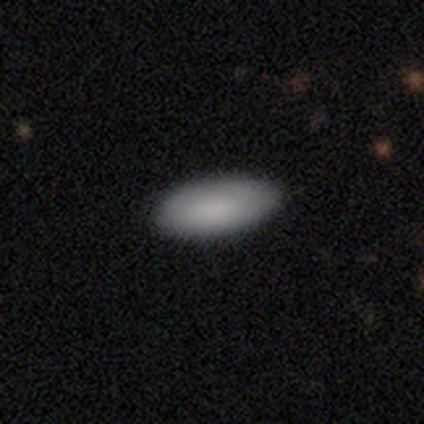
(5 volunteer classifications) Smooth or featured? smooth (100%)
How rounded? in between (100%)
Merging? none (100%)